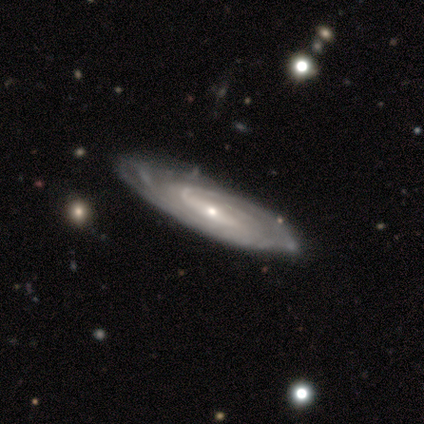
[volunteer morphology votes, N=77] Smooth or featured?
  - featured or disk: 97% *
  - smooth: 3%
  - star or artifact: 0%
Edge-on disk?
  - no: 84% *
  - yes: 16%
Bar?
  - weak: 43% *
  - strong: 40%
  - no: 17%
Spiral arms?
  - yes: 97% *
  - no: 3%
Spiral winding?
  - tight: 61% *
  - medium: 36%
  - loose: 3%
Spiral arm count?
  - can't tell: 39% *
  - 2: 28%
  - 3: 13%
  - 4: 8%
  - 1: 7%
  - more than 4: 5%
Bulge size?
  - small: 76% *
  - moderate: 21%
  - large: 2%
  - none: 2%
  - dominant: 0%
Merging?
  - none: 64% *
  - minor disturbance: 14%
  - major disturbance: 5%
  - merger: 1%